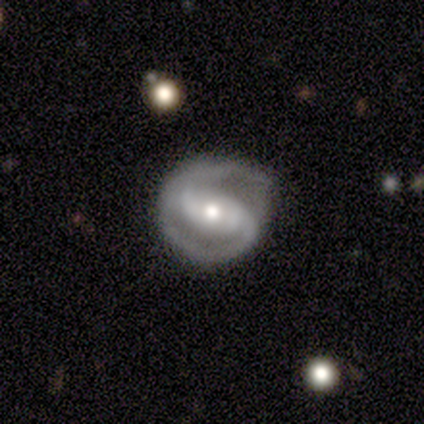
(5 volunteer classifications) A featured or disk galaxy (100%) with a strong bar (60%), 2 (100%) tight (60%) spiral arms (100%) and a moderate central bulge (100%). Merging: none (80%).